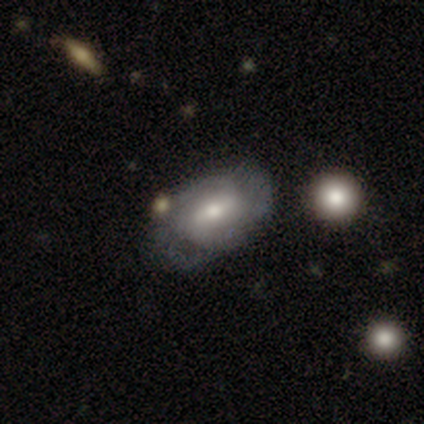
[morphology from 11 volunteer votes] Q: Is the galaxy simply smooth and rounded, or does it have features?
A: featured or disk — 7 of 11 (64%).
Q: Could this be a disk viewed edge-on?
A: no — 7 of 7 (100%).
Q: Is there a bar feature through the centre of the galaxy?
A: no — 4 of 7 (57%).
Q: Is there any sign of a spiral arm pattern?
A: yes — 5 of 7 (71%).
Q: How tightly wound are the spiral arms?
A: medium — 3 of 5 (60%).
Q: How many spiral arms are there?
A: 2 — 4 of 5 (80%).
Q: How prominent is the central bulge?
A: moderate — 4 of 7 (57%).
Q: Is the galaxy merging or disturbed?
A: none — 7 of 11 (64%).